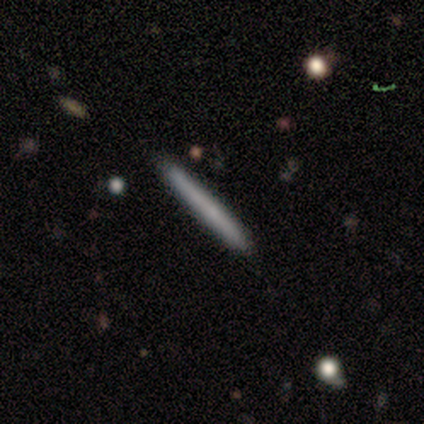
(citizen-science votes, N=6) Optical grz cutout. It shows a smooth galaxy with no disk features (67%) that is cigar-shaped (100%). Merging: none (100%).